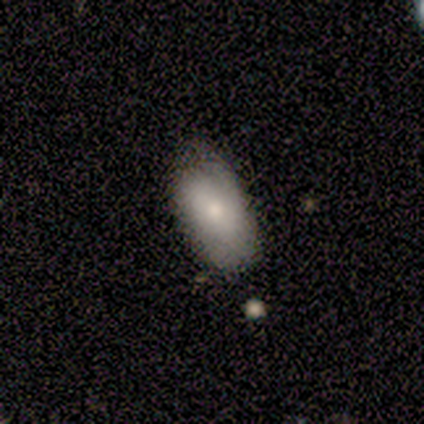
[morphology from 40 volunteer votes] Smooth or featured: smooth — 82% (featured or disk — 15%)
How rounded: in between — 94% (cigar-shaped — 6%)
Merging: none — 59% (minor disturbance — 33%)